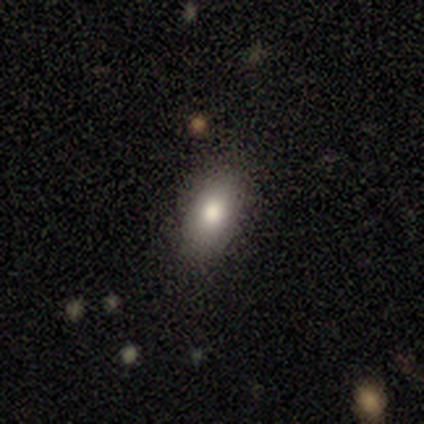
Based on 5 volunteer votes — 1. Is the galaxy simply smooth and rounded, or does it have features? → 100% smooth, 0% featured or disk, 0% star or artifact.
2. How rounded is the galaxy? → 100% in between, 0% round, 0% cigar-shaped.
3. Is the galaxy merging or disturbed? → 100% none, 0% minor disturbance, 0% major disturbance, 0% merger.